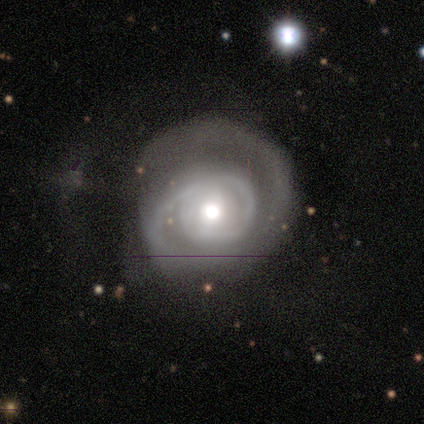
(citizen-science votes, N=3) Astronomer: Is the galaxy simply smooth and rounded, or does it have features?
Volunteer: featured or disk — 100%.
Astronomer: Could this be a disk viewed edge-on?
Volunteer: no — 100%.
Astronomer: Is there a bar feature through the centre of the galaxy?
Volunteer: no — 100%.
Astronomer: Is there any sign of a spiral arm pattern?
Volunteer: yes — 100%.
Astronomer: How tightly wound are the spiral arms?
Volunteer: tight — 67%.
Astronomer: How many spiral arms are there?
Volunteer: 1 — 33%, tied with 2 and can't tell at 33%.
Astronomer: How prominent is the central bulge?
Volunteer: moderate — 100%.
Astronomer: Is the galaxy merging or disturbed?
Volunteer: minor disturbance — 67%.